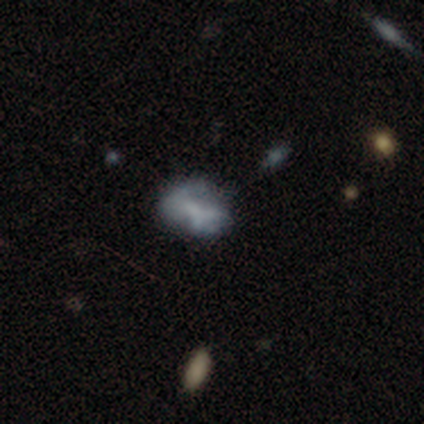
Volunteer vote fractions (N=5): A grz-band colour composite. It shows a smooth galaxy with no disk features (60%) that is in between round and cigar-shaped (100%). Merging: minor disturbance (40%, tied with major disturbance).